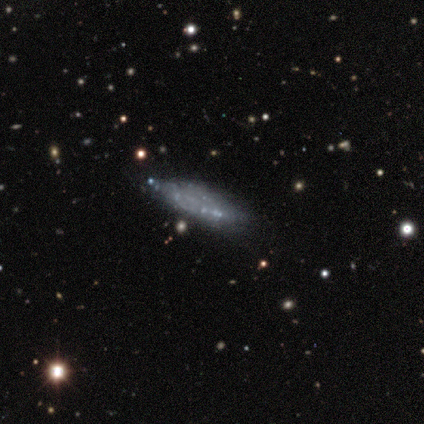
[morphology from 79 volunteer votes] This appears to be a featured or disk galaxy (67%) with no bar (95%), no spiral arms (90%) and no central bulge (100%). Merging: none (30%).